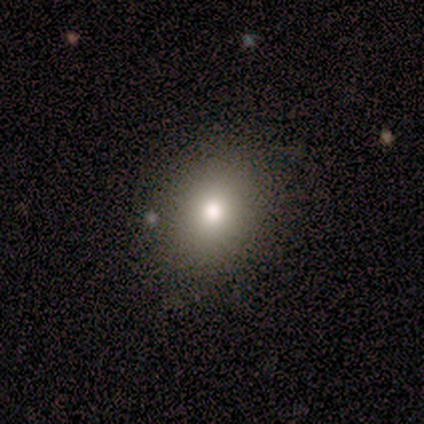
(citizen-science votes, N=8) smooth 50%, star or artifact 38%, featured or disk 12%. Down the decision tree: how rounded — in between (75%); merging — none (40%, tied with merger).